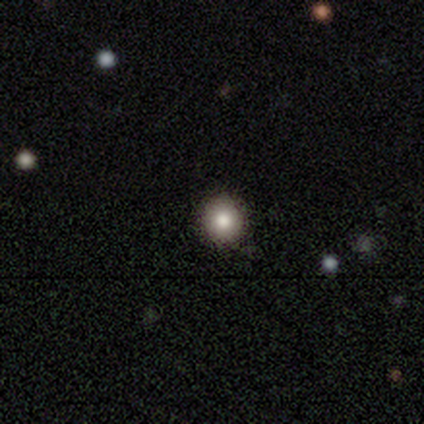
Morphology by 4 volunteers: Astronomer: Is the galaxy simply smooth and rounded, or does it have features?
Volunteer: smooth — 75%.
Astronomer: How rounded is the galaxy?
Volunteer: round — 100%.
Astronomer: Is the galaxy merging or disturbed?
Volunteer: none — 100%.